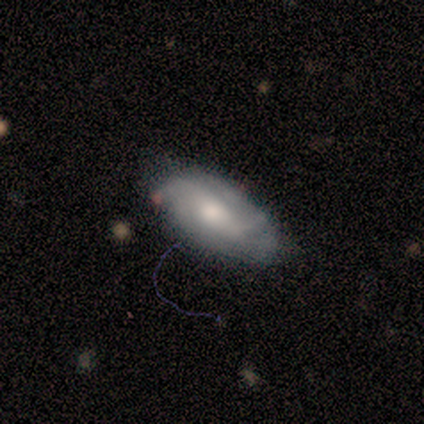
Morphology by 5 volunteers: Overall: featured or disk (60%; smooth 40%). Edge-on disk: no (100%). Bar: strong (33%, tied with weak and no). Spiral arms: yes (67%; no 33%). Spiral arm count: 2 (50%, tied with 3). Spiral winding: medium (50%, tied with loose). Bulge size: moderate (67%; large 33%). Merging: major disturbance (40%; none 20%).